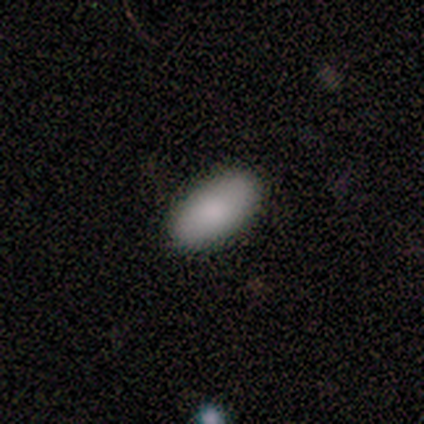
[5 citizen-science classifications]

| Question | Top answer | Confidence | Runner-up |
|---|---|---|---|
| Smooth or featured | smooth | 100% | — |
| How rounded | in between | 100% | — |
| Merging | none | 100% | — |